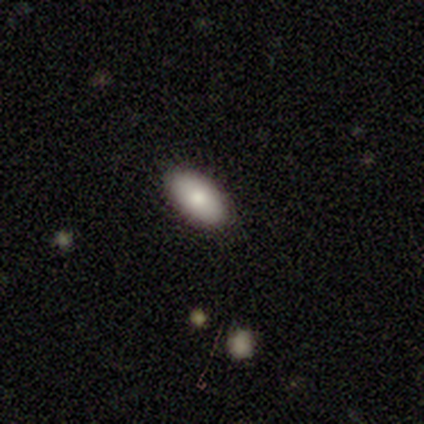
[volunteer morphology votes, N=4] Smooth or featured? 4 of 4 (100%) said smooth. How rounded? 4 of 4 (100%) said in between. Merging? 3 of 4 (75%) said none.